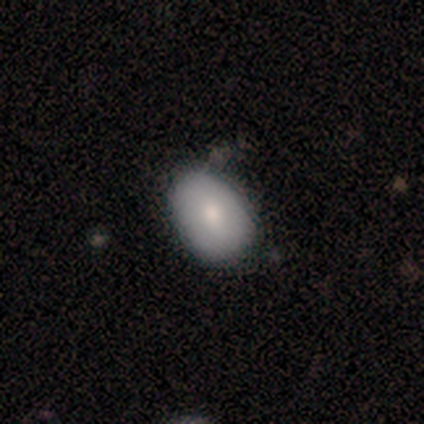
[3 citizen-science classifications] A smooth galaxy with no disk features (100%) that is round (67%). Merging: none (100%).